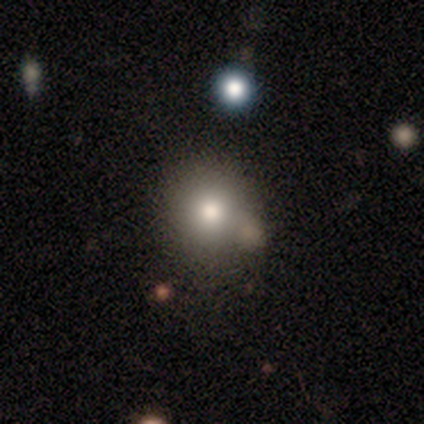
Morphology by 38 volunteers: Smooth or featured?
  - smooth: 74% *
  - star or artifact: 16%
  - featured or disk: 11%
How rounded?
  - round: 93% *
  - in between: 4%
  - cigar-shaped: 4%
Merging?
  - none: 78% *
  - merger: 16%
  - minor disturbance: 6%
  - major disturbance: 0%